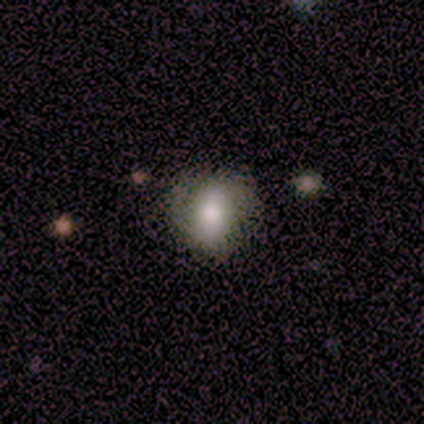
Overall: smooth (60%; featured or disk 20%). How rounded: round (100%). Merging: none (100%).